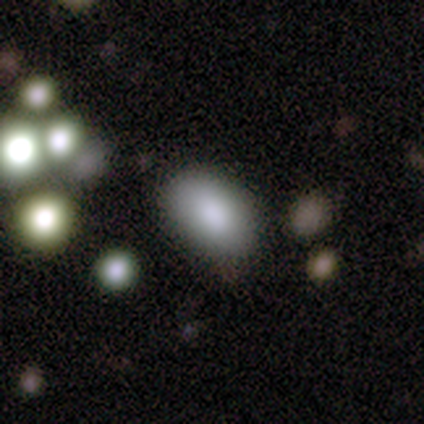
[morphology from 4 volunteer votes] A smooth galaxy with no disk features (100%) that is in between round and cigar-shaped (100%). Merging: none (100%).